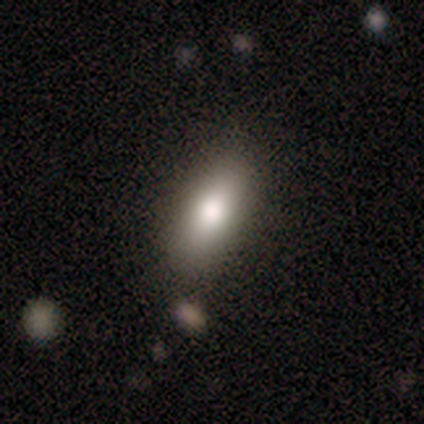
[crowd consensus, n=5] Morphology: type=smooth (80%); roundness=cigar-shaped (75%); merging=none (100%).